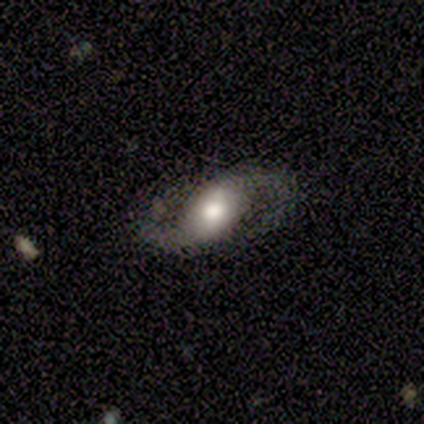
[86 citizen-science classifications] This appears to be a featured or disk galaxy (90%) with a weak bar (44%), 2 (100%) loose (53%) spiral arms (100%) and a moderate central bulge (55%). Merging: none (78%).